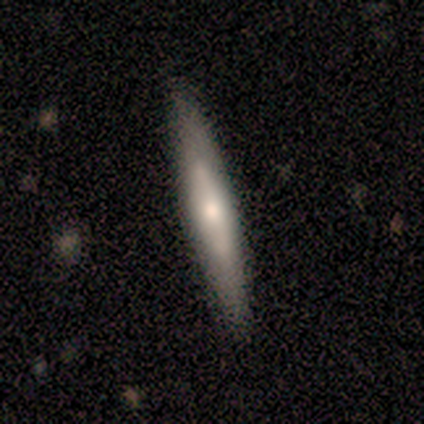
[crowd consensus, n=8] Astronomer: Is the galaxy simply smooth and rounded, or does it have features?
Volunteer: smooth — 50%, tied with featured or disk at 50%.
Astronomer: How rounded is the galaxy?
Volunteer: cigar-shaped — 100%.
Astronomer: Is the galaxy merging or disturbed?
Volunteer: none — 88%.